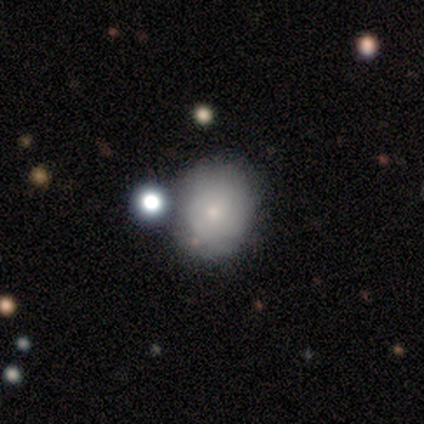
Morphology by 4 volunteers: This appears to be a smooth galaxy with no disk features (75%) that is round (100%). Merging: none (100%).